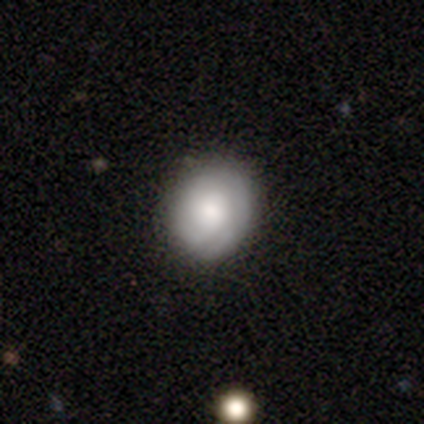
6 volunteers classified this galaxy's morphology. featured or disk 83%, smooth 17%, star or artifact 0%. Down the decision tree: edge-on disk — no (100%); bar — no (80%); spiral arms — yes (60%); spiral arm count — can't tell (67%); spiral winding — tight (33%, tied with medium and loose); bulge size — moderate (40%, tied with small); merging — none (83%).